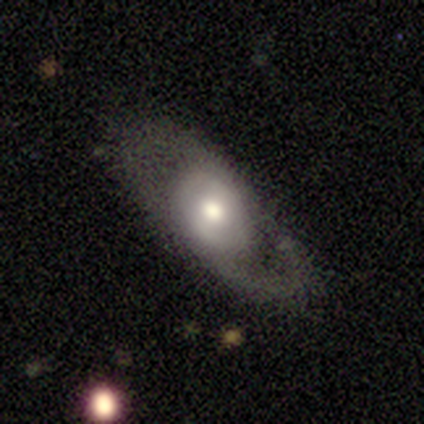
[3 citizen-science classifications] Overall: featured or disk (67%; smooth 33%). Edge-on disk: yes (50%, tied with no). Edge-on bulge: rounded (100%). Merging: none (100%).